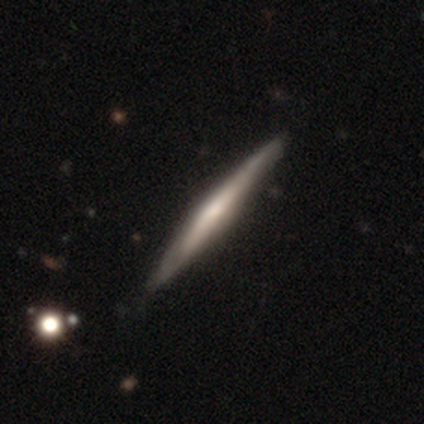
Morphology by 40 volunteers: smooth-or-featured: featured or disk: 72% | smooth: 28% | star or artifact: 0%
  disk-edge-on: yes: 93% | no: 7%
    edge-on-bulge: rounded: 44% | none: 37% | boxy: 19%
  merging: none: 62% | minor disturbance: 5% | merger: 2% | major disturbance: 0%